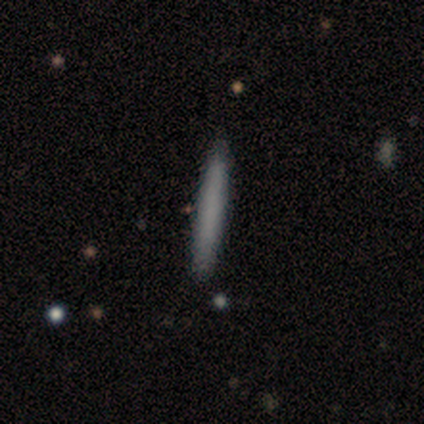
Overall: smooth (78%). How rounded: cigar-shaped (100%). Merging: none (91%).